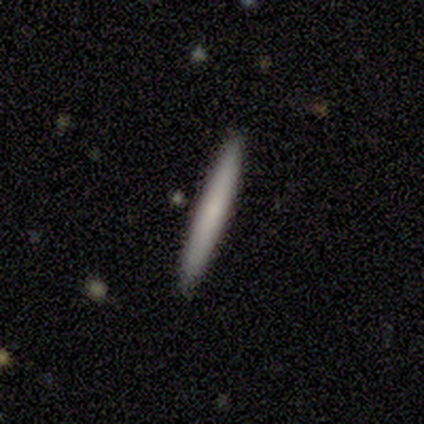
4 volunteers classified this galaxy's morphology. Q: Smooth or featured?
A: smooth (75%); runner-up: featured or disk (25%)
Q: How rounded?
A: cigar-shaped (100%)
Q: Merging?
A: none (100%)